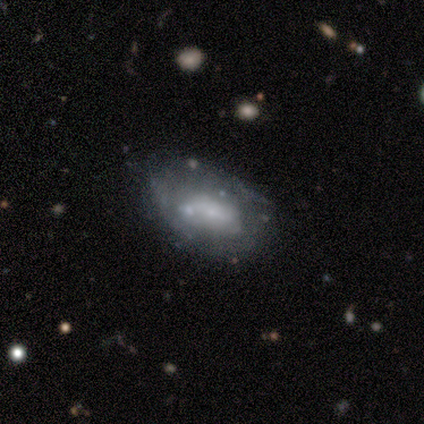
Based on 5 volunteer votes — Volunteers were most divided on "merging": none: 60%, minor disturbance: 40%, major disturbance: 0%, merger: 0%. More confident: smooth or featured — smooth (80%); how rounded — in between (75%).